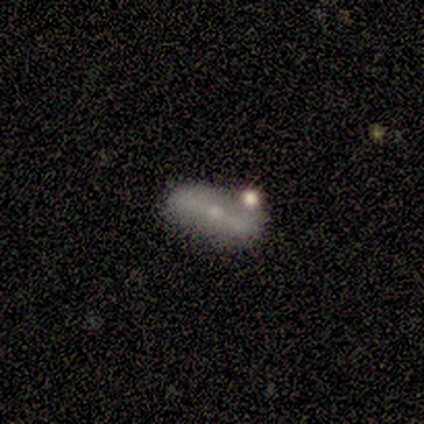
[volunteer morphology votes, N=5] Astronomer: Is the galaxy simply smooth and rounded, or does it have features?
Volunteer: featured or disk — 60% (runner-up: smooth, 40%).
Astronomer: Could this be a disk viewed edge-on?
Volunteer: yes — 67%.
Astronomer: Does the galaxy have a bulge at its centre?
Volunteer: none — 50%, tied with rounded at 50%.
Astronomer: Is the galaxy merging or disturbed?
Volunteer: minor disturbance — 40%, tied with merger at 40%.